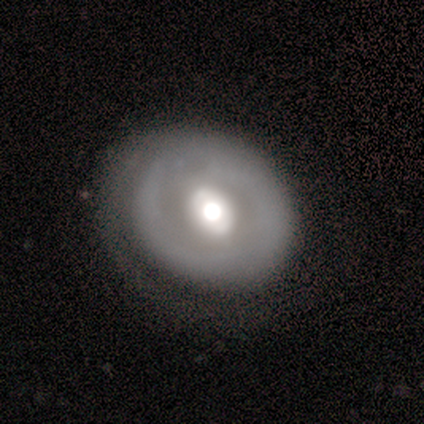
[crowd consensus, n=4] Smooth or featured?
  - smooth: 75% *
  - featured or disk: 25%
  - star or artifact: 0%
How rounded?
  - round: 100% *
  - in between: 0%
  - cigar-shaped: 0%
Merging?
  - none: 75% *
  - merger: 25%
  - minor disturbance: 0%
  - major disturbance: 0%